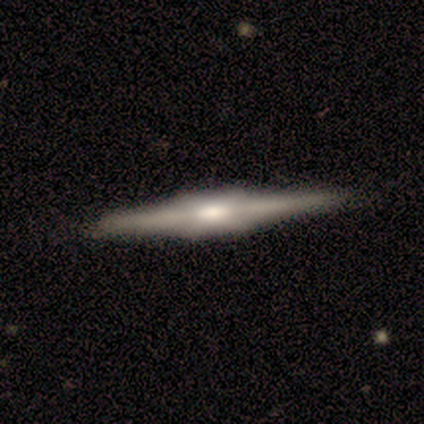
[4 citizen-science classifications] Morphology: type=featured or disk (100%); edge-on=yes (100%); edge-on bulge=boxy (100%); merging=none (75%).